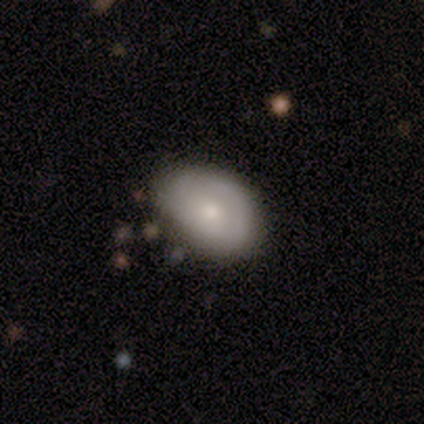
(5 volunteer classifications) Smooth or featured?
  - smooth: 80% *
  - featured or disk: 20%
  - star or artifact: 0%
How rounded?
  - in between: 75% *
  - round: 25%
  - cigar-shaped: 0%
Merging?
  - none: 60% *
  - minor disturbance: 40%
  - major disturbance: 0%
  - merger: 0%